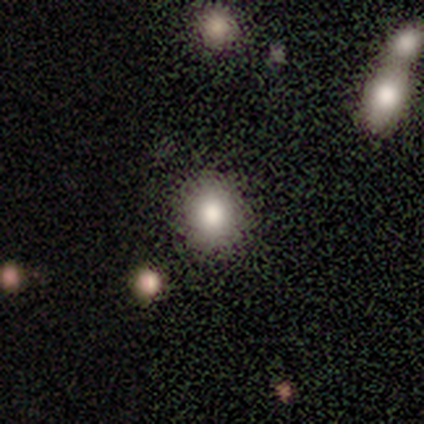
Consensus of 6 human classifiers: Overall: smooth (100%). How rounded: round (67%; in between 33%). Merging: none (100%).